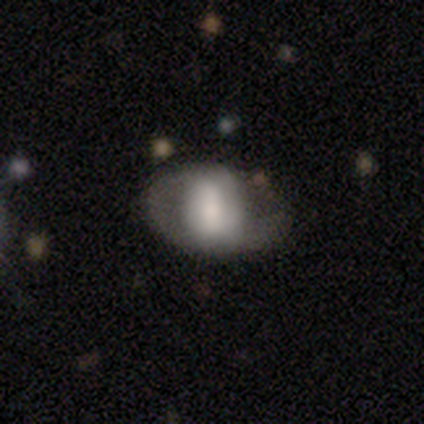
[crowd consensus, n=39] Smooth or featured?
  - featured or disk: 51% *
  - smooth: 49%
  - star or artifact: 0%
Edge-on disk?
  - no: 90% *
  - yes: 10%
Bar?
  - weak: 44% *
  - no: 33%
  - strong: 22%
Spiral arms?
  - yes: 50% * (tied)
  - no: 50% * (tied)
Spiral winding?
  - loose: 56% *
  - medium: 33%
  - tight: 11%
Spiral arm count?
  - 2: 67% *
  - 1: 22%
  - can't tell: 11%
  - 3: 0%
  - 4: 0%
  - more than 4: 0%
Bulge size?
  - small: 28% *
  - large: 22%
  - moderate: 22%
  - none: 17%
  - dominant: 11%
Merging?
  - none: 41% *
  - major disturbance: 13%
  - minor disturbance: 10%
  - merger: 5%